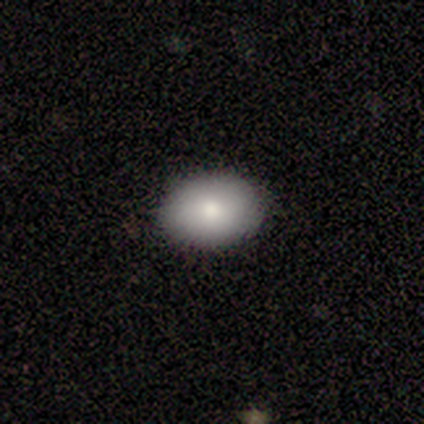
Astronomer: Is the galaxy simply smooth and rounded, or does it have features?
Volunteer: smooth — 90%.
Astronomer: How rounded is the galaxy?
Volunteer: in between — 78%.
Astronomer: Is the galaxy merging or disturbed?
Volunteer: none — 95%.